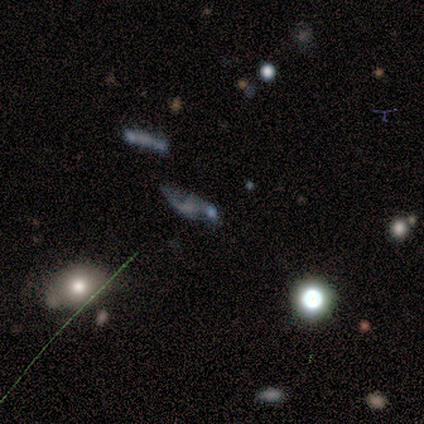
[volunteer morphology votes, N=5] Overall: featured or disk (40%, tied with star or artifact). Edge-on disk: no (100%). Bar: no (100%). Spiral arms: yes (100%). Spiral arm count: 2 (100%). Spiral winding: loose (100%). Bulge size: none (100%). Merging: minor disturbance (33%, tied with major disturbance and merger).